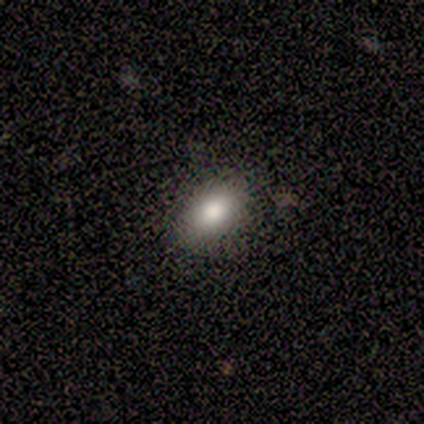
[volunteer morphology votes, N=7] Volunteers were most divided on "how rounded": in between: 83%, round: 17%, cigar-shaped: 0%. More confident: smooth or featured — smooth (86%); merging — none (83%).